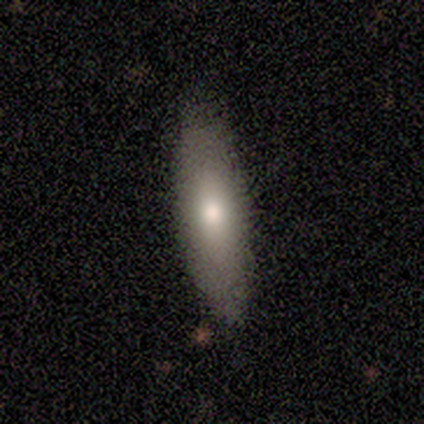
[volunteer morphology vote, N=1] type=smooth (100%); roundness=in between (100%); merging=none (100%).